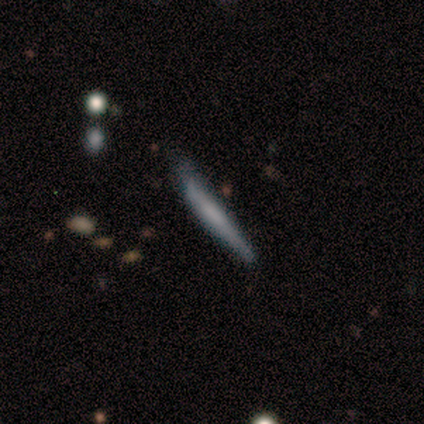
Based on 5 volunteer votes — Smooth or featured: featured or disk — 60% (smooth — 40%)
Edge-on disk: yes — 100%
Edge-on bulge: none — 67% (rounded — 33%)
Merging: minor disturbance — 60% (none — 40%)